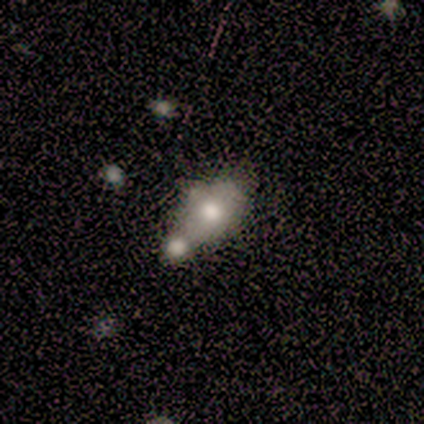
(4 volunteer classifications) Volunteers were most divided on "edge-on disk" (2-way tie): yes: 50%, no: 50%. More confident: edge-on bulge — rounded (100%); merging — merger (100%); smooth or featured — featured or disk (50%).